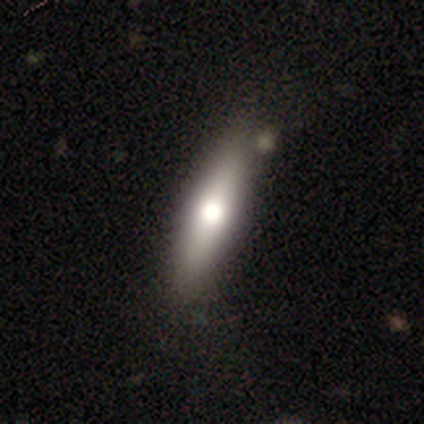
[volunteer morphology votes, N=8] Smooth or featured? smooth (50%, tied with featured or disk)
How rounded? in between (50%, tied with cigar-shaped)
Merging? none (88%)